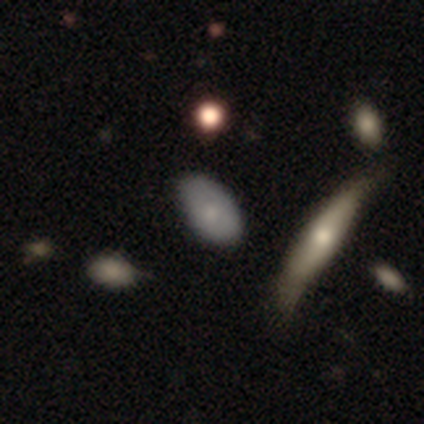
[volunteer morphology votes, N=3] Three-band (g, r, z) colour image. It shows a featured or disk galaxy (67%) viewed edge-on (50%, tied with no) with a rounded central bulge (100%). Merging: none (67%).